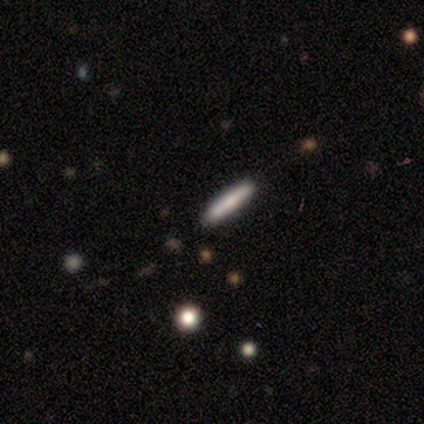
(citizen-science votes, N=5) Smooth or featured? 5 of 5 (100%) said smooth. How rounded? 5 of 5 (100%) said cigar-shaped. Merging? 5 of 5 (100%) said none.